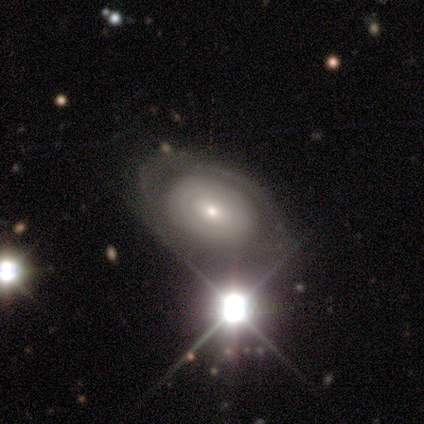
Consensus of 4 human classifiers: A smooth galaxy with no disk features (50%, tied with featured or disk) that is round (50%, tied with in between).

Vote fractions:
- Smooth or featured? smooth: 50% (tied) / featured or disk: 50% (tied) / star or artifact: 0%
- How rounded? round: 50% (tied) / in between: 50% (tied) / cigar-shaped: 0%
- Merging? none: 75% / major disturbance: 25% / minor disturbance: 0% / merger: 0%